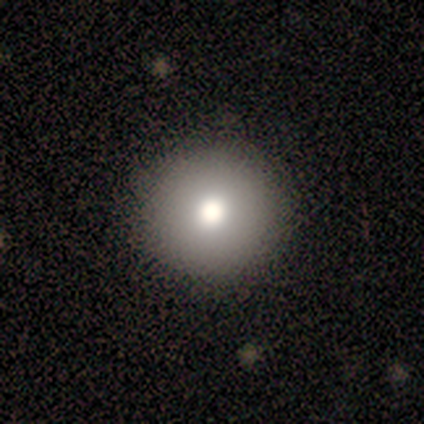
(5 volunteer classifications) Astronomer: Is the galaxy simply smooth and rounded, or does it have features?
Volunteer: smooth — 80%.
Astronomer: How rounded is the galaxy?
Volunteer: round — 100%.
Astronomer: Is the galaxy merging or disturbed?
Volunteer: none — 80%.